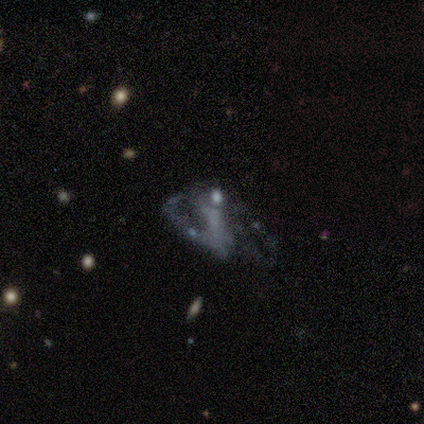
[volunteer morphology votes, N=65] Overall: featured or disk (77%). Edge-on disk: no (96%). Bar: no (54%; strong 25%). Spiral arms: no (52%; yes 48%). Bulge size: none (60%). Merging: major disturbance (41%; none 32%).